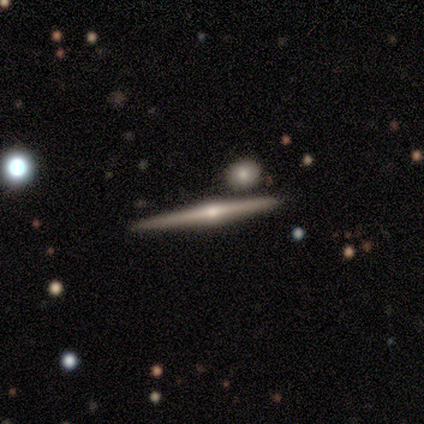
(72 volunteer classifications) Volunteers were most divided on "merging": none: 86%, merger: 11%, minor disturbance: 3%, major disturbance: 0%. More confident: edge-on disk — yes (100%); smooth or featured — featured or disk (93%); edge-on bulge — rounded (91%).